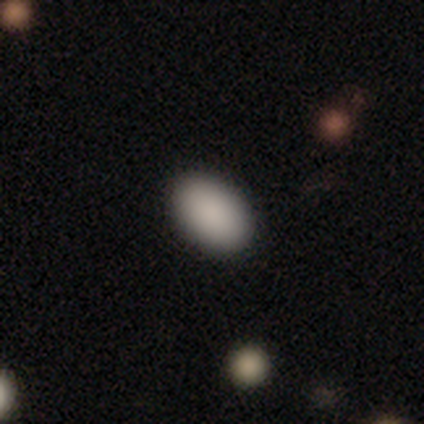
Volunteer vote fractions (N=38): A smooth galaxy with no disk features (97%) that is in between round and cigar-shaped (95%).

Vote fractions:
- Smooth or featured? smooth: 97% / star or artifact: 3% / featured or disk: 0%
- How rounded? in between: 95% / round: 5% / cigar-shaped: 0%
- Merging? none: 86% / major disturbance: 8% / minor disturbance: 5% / merger: 0%